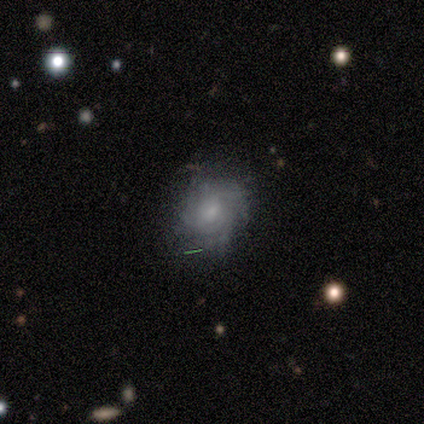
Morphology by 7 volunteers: featured or disk 86%, star or artifact 14%, smooth 0%. Down the decision tree: edge-on disk — no (100%); bar — no (67%); spiral arms — yes (100%); spiral arm count — can't tell (83%); spiral winding — tight (50%); bulge size — moderate (67%); merging — none (67%).